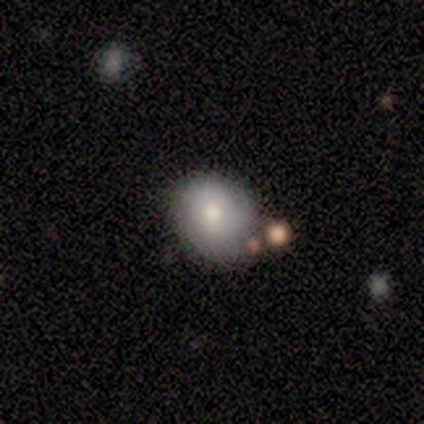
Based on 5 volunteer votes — Smooth or featured? 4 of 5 (80%) said smooth. How rounded? 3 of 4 (75%) said round. Merging? 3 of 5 (60%) said minor disturbance.